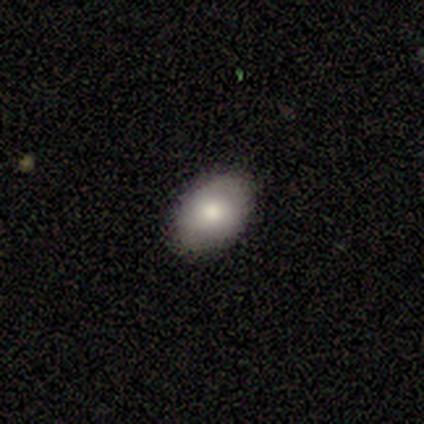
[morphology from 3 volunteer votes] Volunteers were most divided on "smooth or featured" (3-way tie): smooth: 33%, featured or disk: 33%, star or artifact: 33%. More confident: how rounded — round (100%); merging — none (100%).